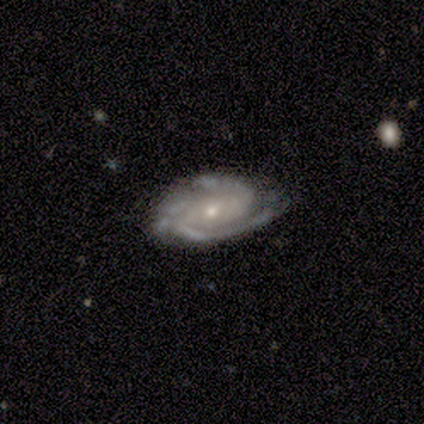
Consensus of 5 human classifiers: Smooth or featured? featured or disk (80%)
Edge-on disk? no (100%)
Bar? no (50%)
Spiral arms? yes (100%)
Spiral winding? tight (50%)
Spiral arm count? 2 (25%, tied with 3, 4 and can't tell)
Bulge size? small (75%)
Merging? none (100%)